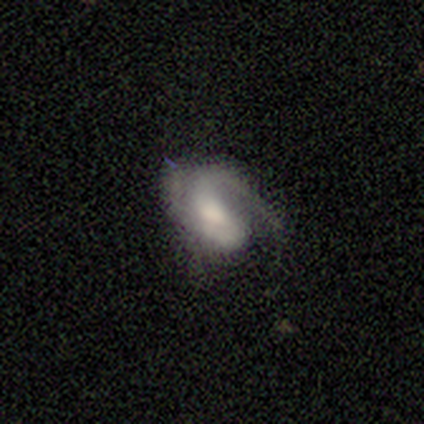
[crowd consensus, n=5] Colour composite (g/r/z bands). It shows a featured or disk galaxy (100%) with a weak bar (50%, tied with no), 1 (75%) loose (50%) spiral arms (100%) and a large central bulge (50%). Merging: none (40%, tied with minor disturbance).